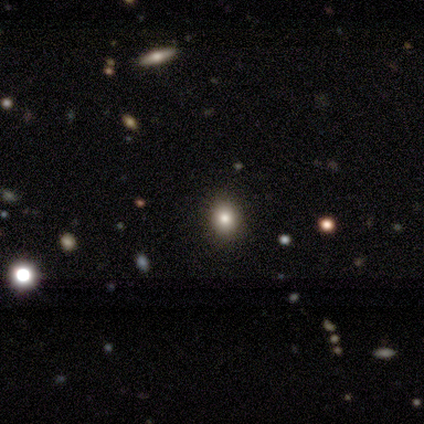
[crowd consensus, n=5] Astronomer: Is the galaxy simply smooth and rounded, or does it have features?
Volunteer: smooth — 60%.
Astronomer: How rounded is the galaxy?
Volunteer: in between — 67%.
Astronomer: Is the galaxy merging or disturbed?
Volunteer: none — 75%.